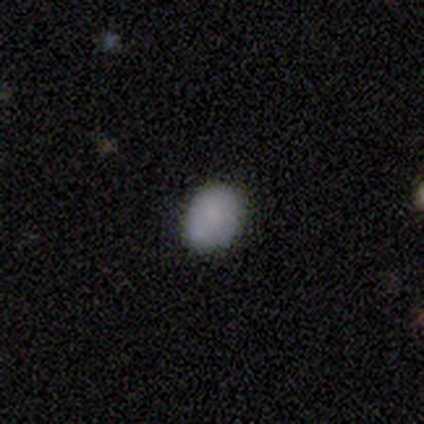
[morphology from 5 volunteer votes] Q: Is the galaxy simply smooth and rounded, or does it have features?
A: smooth — 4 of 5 (80%).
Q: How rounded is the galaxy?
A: round — 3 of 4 (75%).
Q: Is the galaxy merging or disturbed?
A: minor disturbance — 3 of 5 (60%).